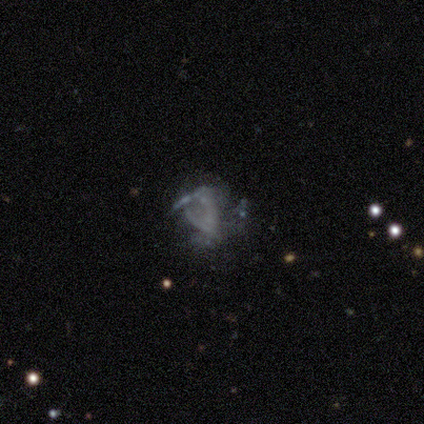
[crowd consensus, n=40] A featured or disk galaxy (68%) with no bar (85%), loose (62%) spiral arms (50%, tied with no) and no central bulge (96%).

Vote fractions:
- Smooth or featured? featured or disk: 68% / star or artifact: 18% / smooth: 15%
- Edge-on disk? no: 96% / yes: 4%
- Bar? no: 85% / weak: 12% / strong: 4%
- Spiral arms? yes: 50% (tied) / no: 50% (tied)
- Spiral winding? loose: 62% / tight: 38% / medium: 0%
- Spiral arm count? can't tell: 77% / 2: 8% / 3: 8% / more than 4: 8% / 1: 0% / 4: 0%
- Bulge size? none: 96% / small: 4% / dominant: 0% / large: 0% / moderate: 0%
- Merging? major disturbance: 39% / none: 33% / minor disturbance: 15% / merger: 12%